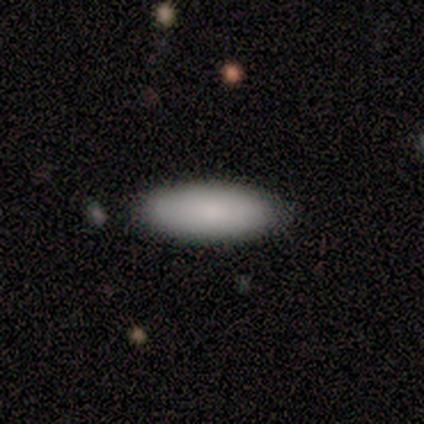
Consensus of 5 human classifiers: Overall: smooth (100%). How rounded: in between (100%). Merging: none (100%).